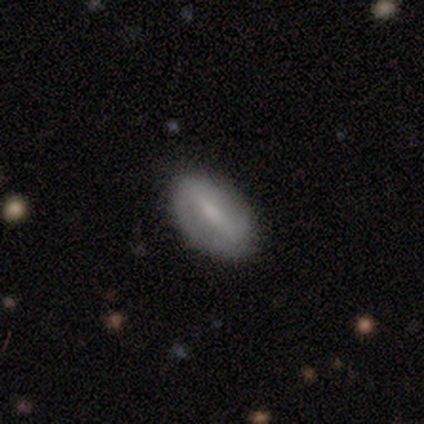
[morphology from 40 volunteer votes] Volunteers were most divided on "spiral arms": no: 52%, yes: 48%. More confident: edge-on disk — no (91%); merging — none (83%); bulge size — small (62%); smooth or featured — featured or disk (57%); bar — weak (52%).